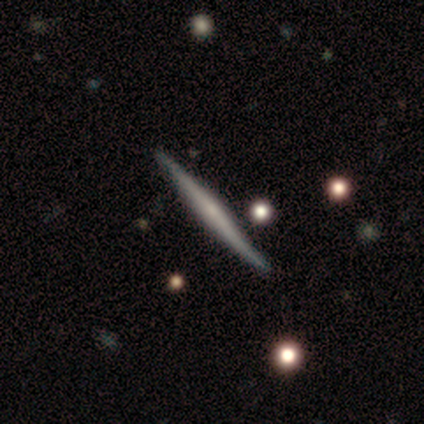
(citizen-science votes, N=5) Smooth or featured? 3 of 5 (60%) said featured or disk. Edge-on disk? 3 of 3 (100%) said yes. Edge-on bulge? 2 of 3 (67%) said none. Merging? 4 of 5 (80%) said none.